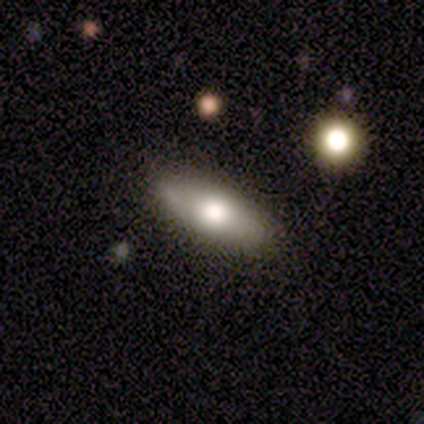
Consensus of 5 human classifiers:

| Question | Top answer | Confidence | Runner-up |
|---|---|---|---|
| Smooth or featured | smooth | 40% | tied: star or artifact (40%) |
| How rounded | in between | 100% | — |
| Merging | none | 100% | — |